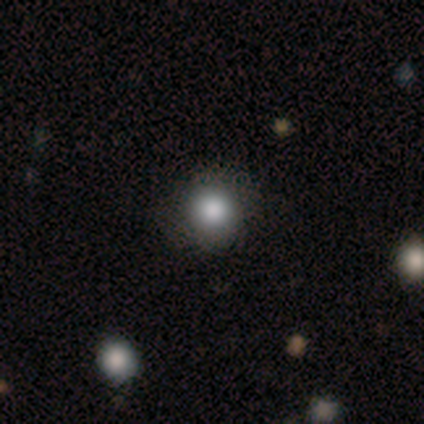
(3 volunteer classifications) Smooth or featured? 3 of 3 (100%) said smooth. How rounded? 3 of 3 (100%) said round. Merging? 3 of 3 (100%) said none.